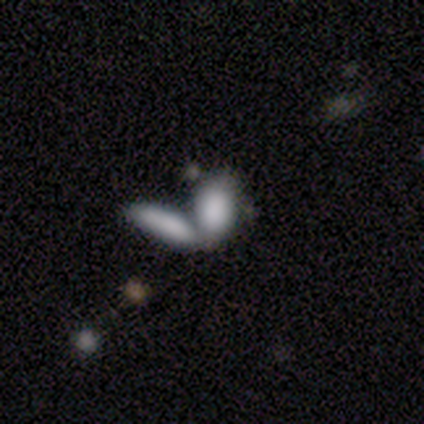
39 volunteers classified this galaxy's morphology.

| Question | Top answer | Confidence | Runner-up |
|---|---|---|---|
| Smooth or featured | smooth | 82% | featured or disk (13%) |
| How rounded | in between | 91% | cigar-shaped (9%) |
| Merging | merger | 84% | none (8%) |